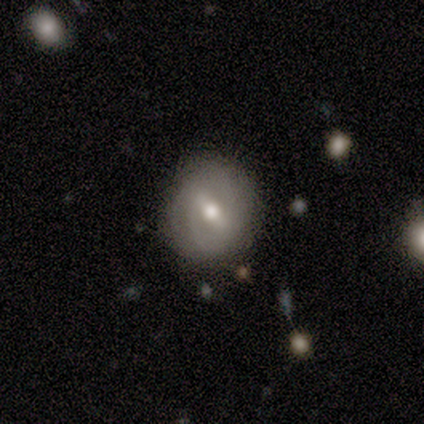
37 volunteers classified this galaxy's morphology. smooth_or_featured: featured or disk (p=0.59) [alt: smooth p=0.35]
disk_edge_on: no (p=0.86) [alt: yes p=0.14]
bar: weak (p=0.53) [alt: no p=0.26]
has_spiral_arms: yes (p=0.58) [alt: no p=0.42]
spiral_winding: tight (p=0.45) [alt: medium p=0.27]
spiral_arm_count: 2 (p=0.55) [alt: can't tell p=0.27]
bulge_size: moderate (p=0.79) [alt: small p=0.16]
merging: none (p=0.77) [alt: minor disturbance p=0.17]